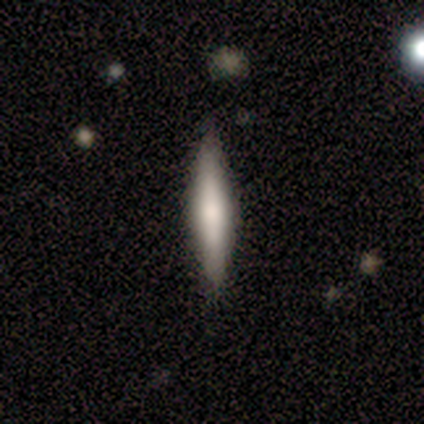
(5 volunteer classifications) Consensus on every question: smooth or featured — smooth (100%); how rounded — cigar-shaped (100%); merging — none (100%).